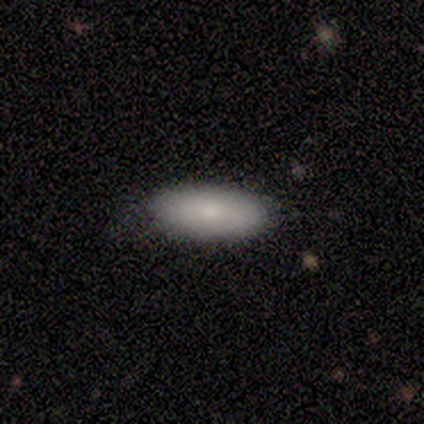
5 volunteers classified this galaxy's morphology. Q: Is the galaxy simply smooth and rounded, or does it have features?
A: smooth — 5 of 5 (100%).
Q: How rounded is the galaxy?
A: in between — 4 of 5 (80%).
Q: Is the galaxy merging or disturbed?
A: none — 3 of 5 (60%).